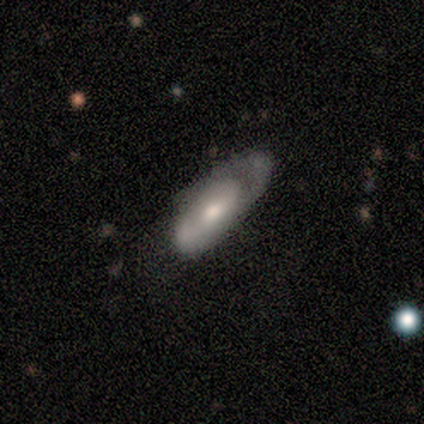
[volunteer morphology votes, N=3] Smooth or featured? smooth (67%)
How rounded? in between (100%)
Merging? none (33%, tied with major disturbance and merger)